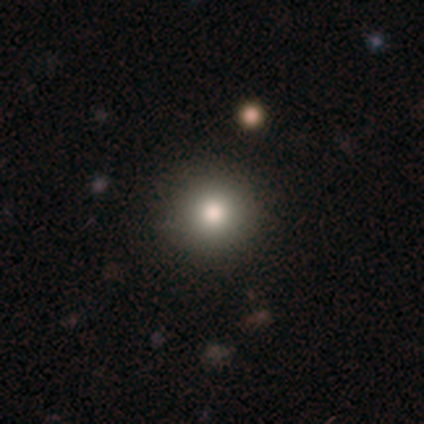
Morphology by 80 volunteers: A smooth galaxy with no disk features (78%) that is round (100%).

Vote fractions:
- Smooth or featured? smooth: 78% / featured or disk: 11% / star or artifact: 11%
- How rounded? round: 100% / in between: 0% / cigar-shaped: 0%
- Merging? none: 46% / merger: 3% / minor disturbance: 1% / major disturbance: 0%